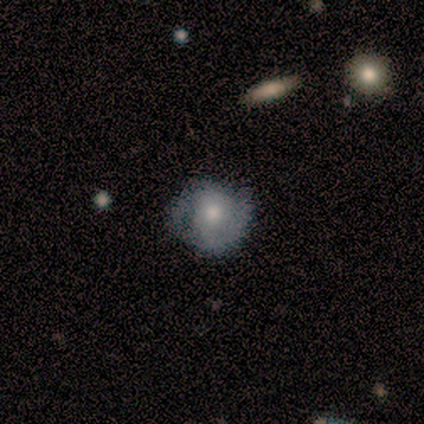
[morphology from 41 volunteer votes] type=featured or disk (71%); edge-on=no (100%); bar=no (86%); spiral arms=yes (90%); winding=tight (58%); arm count=2 (77%); bulge=moderate (59%); merging=none (85%).